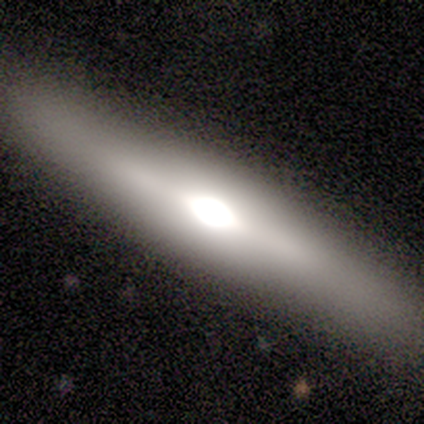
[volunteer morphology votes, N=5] This is clearly a featured or disk galaxy (100%). It is clearly viewed edge-on (100%). Edge-on bulge: clearly rounded (80%). Merging: clearly none (80%).